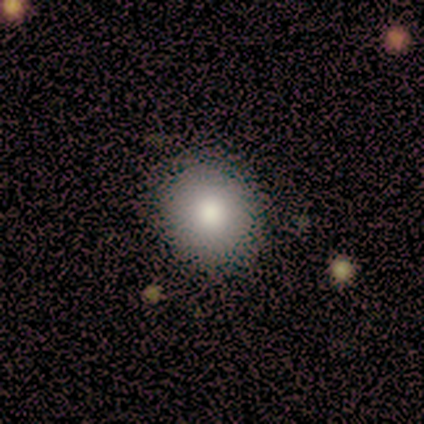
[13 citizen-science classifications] Morphology: type=smooth (85%); roundness=round (82%); merging=none (85%).